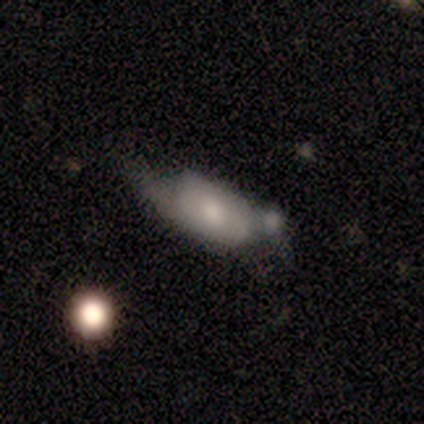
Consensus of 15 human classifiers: smooth 53%, featured or disk 40%, star or artifact 7%. Down the decision tree: how rounded — in between (100%); merging — none (36%).